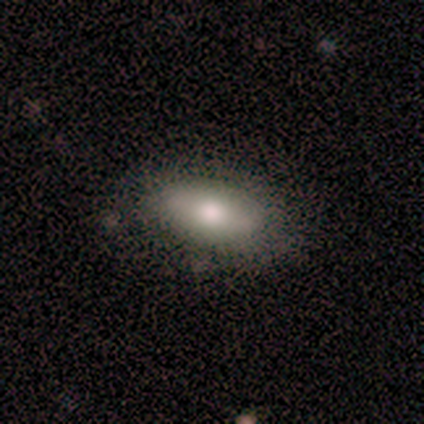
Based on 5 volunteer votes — A smooth galaxy with no disk features (80%) that is in between round and cigar-shaped (100%).

Vote fractions:
- Smooth or featured? smooth: 80% / star or artifact: 20% / featured or disk: 0%
- How rounded? in between: 100% / round: 0% / cigar-shaped: 0%
- Merging? none: 75% / major disturbance: 25% / minor disturbance: 0% / merger: 0%